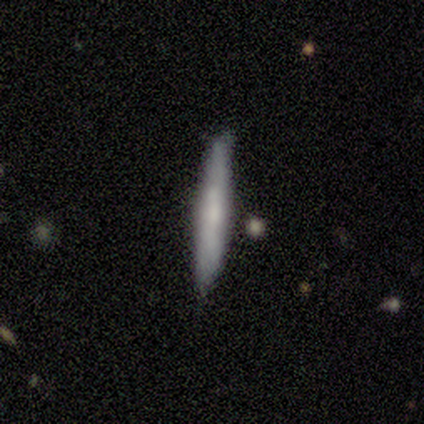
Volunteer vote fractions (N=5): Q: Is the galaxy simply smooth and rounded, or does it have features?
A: smooth — 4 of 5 (80%).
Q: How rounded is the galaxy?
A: cigar-shaped — 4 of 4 (100%).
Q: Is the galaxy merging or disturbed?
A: none — 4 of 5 (80%).